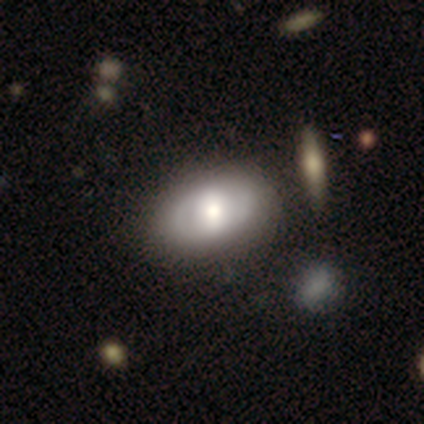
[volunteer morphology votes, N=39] Smooth or featured? 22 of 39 (56%) said smooth. How rounded? 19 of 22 (86%) said in between. Merging? 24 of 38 (63%) said none.